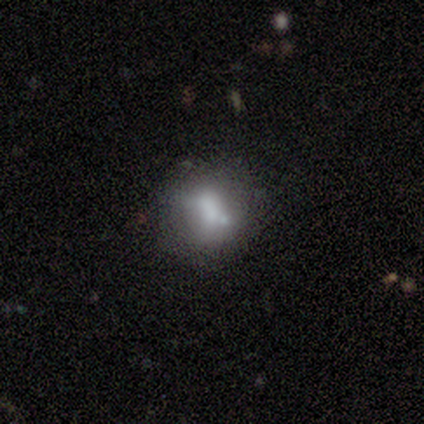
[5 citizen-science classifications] featured or disk 60%, smooth 20%, star or artifact 20%. Down the decision tree: edge-on disk — no (100%); bar — no (67%); spiral arms — no (67%); bulge size — large (33%, tied with small and none); merging — none (50%).